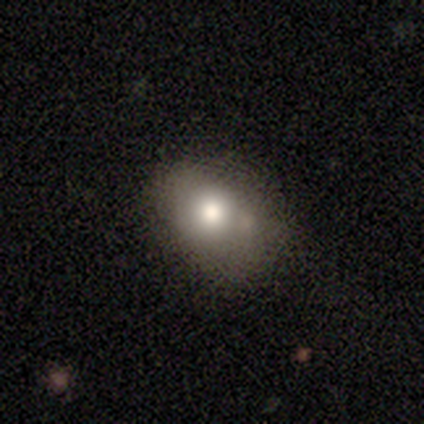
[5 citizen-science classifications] A smooth galaxy with no disk features (80%) that is round (50%, tied with in between).

Vote fractions:
- Smooth or featured? smooth: 80% / star or artifact: 20% / featured or disk: 0%
- How rounded? round: 50% (tied) / in between: 50% (tied) / cigar-shaped: 0%
- Merging? none: 50% / minor disturbance: 25% / merger: 25% / major disturbance: 0%